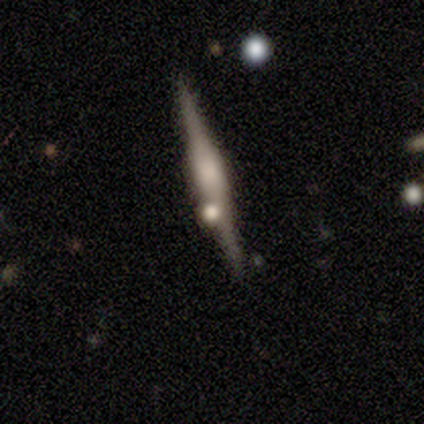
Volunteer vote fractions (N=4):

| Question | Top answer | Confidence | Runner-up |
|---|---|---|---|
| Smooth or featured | featured or disk | 100% | — |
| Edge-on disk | yes | 100% | — |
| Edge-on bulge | boxy | 100% | — |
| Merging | none | 100% | — |